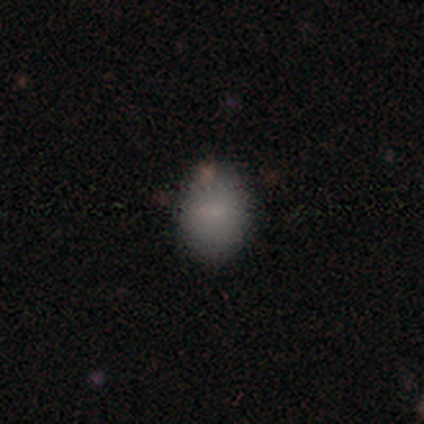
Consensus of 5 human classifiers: A smooth galaxy with no disk features (100%) that is round (60%).

Vote fractions:
- Smooth or featured? smooth: 100% / featured or disk: 0% / star or artifact: 0%
- How rounded? round: 60% / in between: 40% / cigar-shaped: 0%
- Merging? none: 80% / minor disturbance: 20% / major disturbance: 0% / merger: 0%